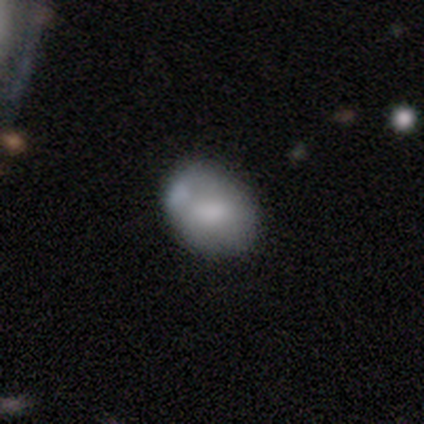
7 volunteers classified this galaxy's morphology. A smooth galaxy with no disk features (43%, tied with featured or disk) that is in between round and cigar-shaped (67%).

Vote fractions:
- Smooth or featured? smooth: 43% (tied) / featured or disk: 43% (tied) / star or artifact: 14%
- How rounded? in between: 67% / round: 33% / cigar-shaped: 0%
- Merging? none: 67% / minor disturbance: 17% / merger: 17% / major disturbance: 0%